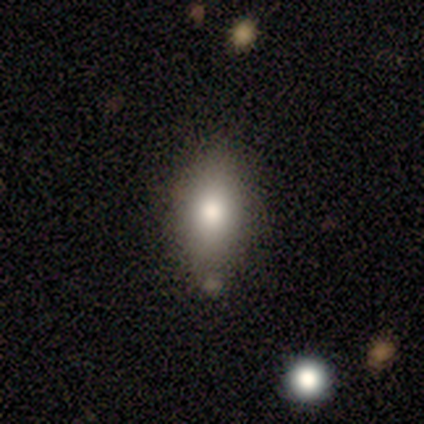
smooth-or-featured: smooth: 84% | featured or disk: 11% | star or artifact: 5%
  how-rounded: in between: 84% | round: 12% | cigar-shaped: 3%
  merging: none: 58% | minor disturbance: 22% | major disturbance: 14% | merger: 6%